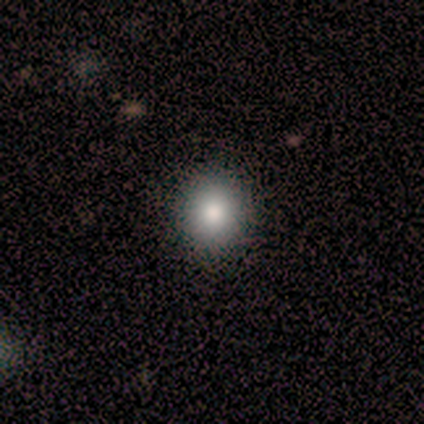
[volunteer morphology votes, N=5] Smooth or featured?
  - smooth: 80% *
  - featured or disk: 20%
  - star or artifact: 0%
How rounded?
  - round: 75% *
  - in between: 25%
  - cigar-shaped: 0%
Merging?
  - none: 100% *
  - minor disturbance: 0%
  - major disturbance: 0%
  - merger: 0%